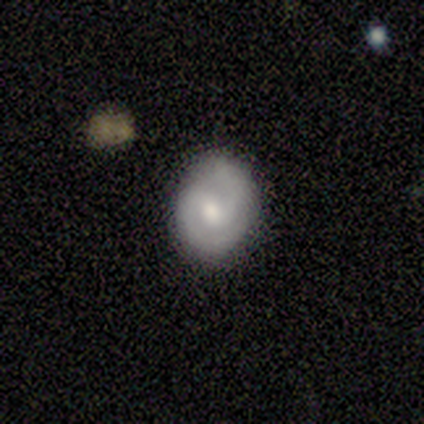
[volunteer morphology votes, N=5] Smooth or featured? 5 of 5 (100%) said featured or disk. Edge-on disk? 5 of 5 (100%) said no. Bar? 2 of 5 (40%, tied with no) said weak. Spiral arms? 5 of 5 (100%) said yes. Spiral winding? 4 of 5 (80%) said tight. Spiral arm count? 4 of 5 (80%) said 2. Bulge size? 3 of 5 (60%) said moderate. Merging? 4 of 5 (80%) said none.